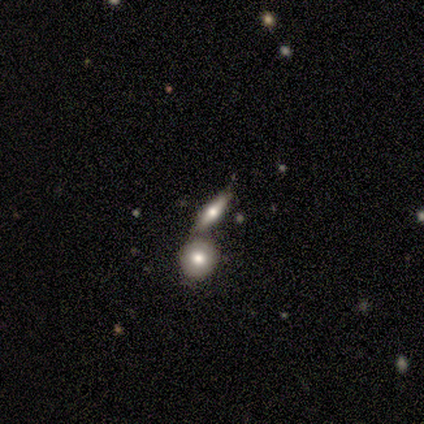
smooth-or-featured: featured or disk: 60% | smooth: 40% | star or artifact: 0%
  disk-edge-on: yes: 100% | no: 0%
    edge-on-bulge: rounded: 100% | boxy: 0% | none: 0%
  merging: merger: 60% | none: 40% | minor disturbance: 0% | major disturbance: 0%